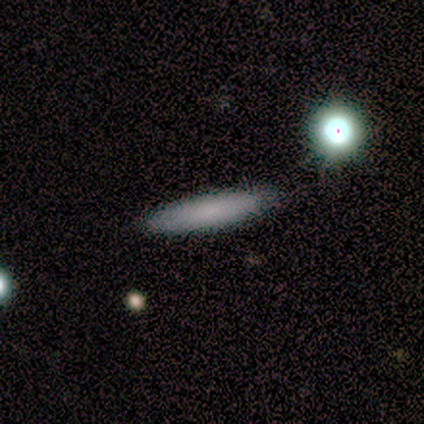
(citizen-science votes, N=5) Smooth or featured? smooth (60%)
How rounded? cigar-shaped (67%)
Merging? none (100%)